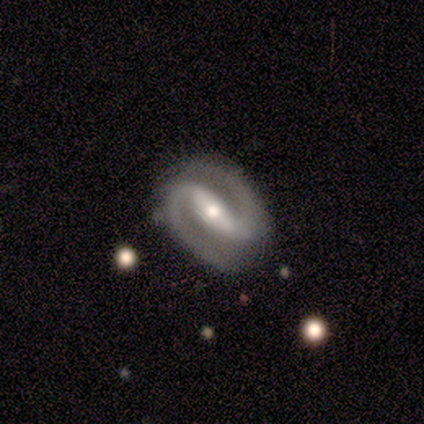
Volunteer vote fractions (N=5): Smooth or featured?
  - featured or disk: 100% *
  - smooth: 0%
  - star or artifact: 0%
Edge-on disk?
  - no: 60% *
  - yes: 40%
Bar?
  - strong: 67% *
  - no: 33%
  - weak: 0%
Spiral arms?
  - yes: 100% *
  - no: 0%
Spiral winding?
  - medium: 67% *
  - loose: 33%
  - tight: 0%
Spiral arm count?
  - 2: 100% *
  - 1: 0%
  - 3: 0%
  - 4: 0%
  - more than 4: 0%
  - can't tell: 0%
Bulge size?
  - small: 67% *
  - moderate: 33%
  - dominant: 0%
  - large: 0%
  - none: 0%
Merging?
  - none: 100% *
  - minor disturbance: 0%
  - major disturbance: 0%
  - merger: 0%